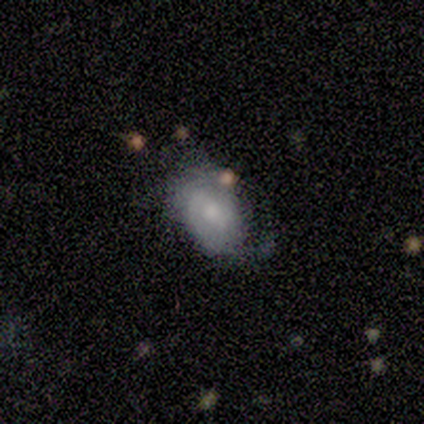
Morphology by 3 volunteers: A smooth galaxy with no disk features (67%) that is in between round and cigar-shaped (100%). Merging: minor disturbance (67%).